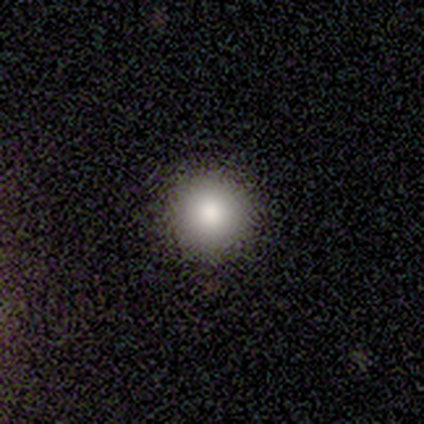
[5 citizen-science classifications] This appears to be a smooth galaxy with no disk features (100%) that is round (100%). Merging: none (60%).